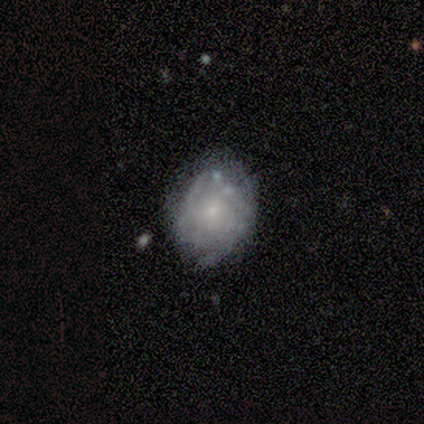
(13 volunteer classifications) Smooth or featured?
  - featured or disk: 62% *
  - smooth: 23%
  - star or artifact: 15%
Edge-on disk?
  - no: 100% *
  - yes: 0%
Bar?
  - no: 75% *
  - weak: 25%
  - strong: 0%
Spiral arms?
  - yes: 62% *
  - no: 38%
Spiral winding?
  - tight: 60% *
  - medium: 40%
  - loose: 0%
Spiral arm count?
  - can't tell: 80% *
  - 4: 20%
  - 1: 0%
  - 2: 0%
  - 3: 0%
  - more than 4: 0%
Bulge size?
  - moderate: 62% *
  - small: 38%
  - dominant: 0%
  - large: 0%
  - none: 0%
Merging?
  - none: 55% *
  - minor disturbance: 45%
  - major disturbance: 0%
  - merger: 0%